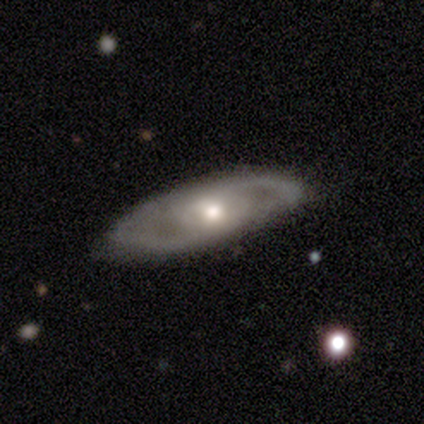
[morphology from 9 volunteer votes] Smooth or featured? featured or disk (89%)
Edge-on disk? no (88%)
Bar? no (71%)
Spiral arms? yes (57%)
Spiral winding? loose (50%)
Spiral arm count? 2 (75%)
Bulge size? moderate (71%)
Merging? none (56%)